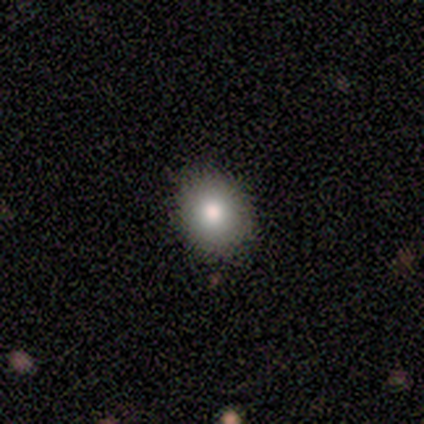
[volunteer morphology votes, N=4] Volunteers were most divided on "how rounded": round: 67%, cigar-shaped: 33%, in between: 0%. More confident: merging — none (100%); smooth or featured — smooth (75%).